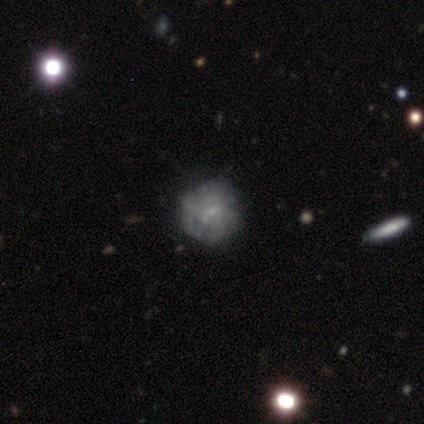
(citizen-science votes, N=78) Smooth or featured? 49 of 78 (63%) said featured or disk. Edge-on disk? 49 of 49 (100%) said no. Bar? 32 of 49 (65%) said no. Spiral arms? 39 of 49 (80%) said no. Bulge size? 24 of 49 (49%) said none. Merging? 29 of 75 (39%) said none.